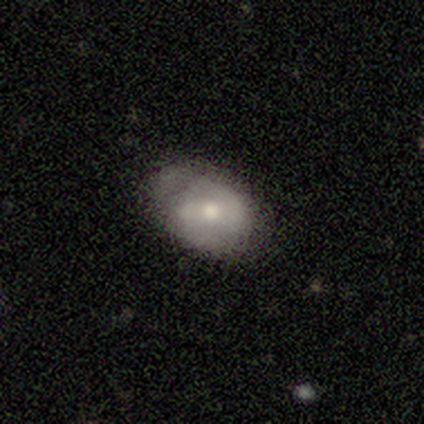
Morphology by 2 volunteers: smooth_or_featured: smooth (p=0.50) [tied with: featured or disk p=0.50]
how_rounded: in between (p=1.00)
merging: none (p=1.00)